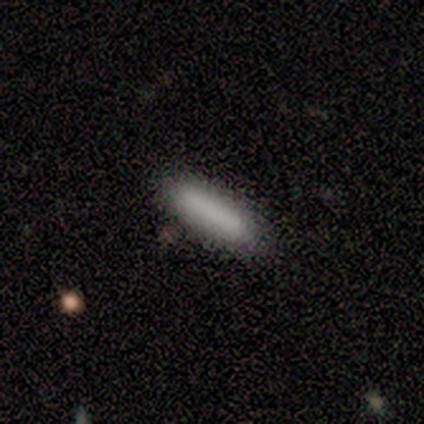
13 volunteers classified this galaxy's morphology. Smooth or featured: smooth — 85% (star or artifact — 15%)
How rounded: cigar-shaped — 73% (in between — 27%)
Merging: none — 91% (merger — 9%)